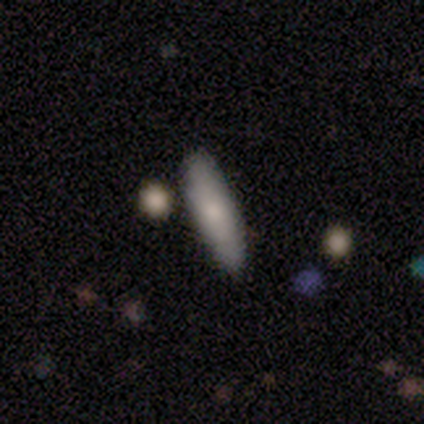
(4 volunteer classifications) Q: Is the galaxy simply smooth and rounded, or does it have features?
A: smooth — 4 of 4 (100%).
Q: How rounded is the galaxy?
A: in between — 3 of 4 (75%).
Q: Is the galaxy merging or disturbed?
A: none — 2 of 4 (50%, tied with minor disturbance).